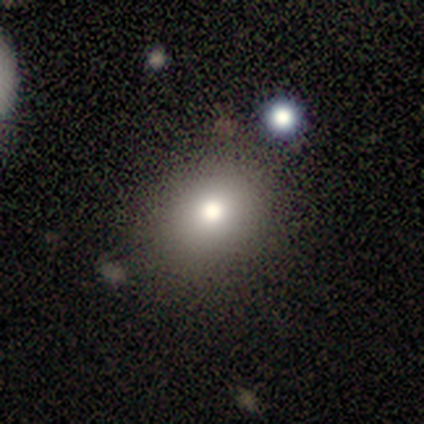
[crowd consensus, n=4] This is likely a smooth galaxy (75%). How rounded: clearly round (100%). Merging: clearly none (100%).